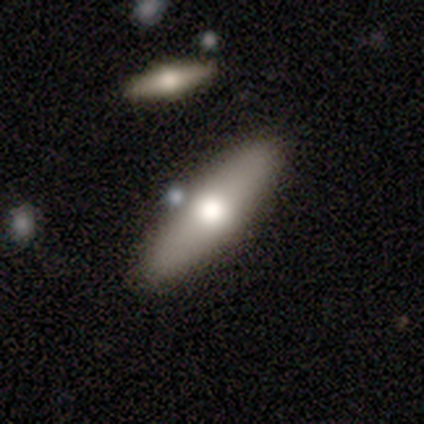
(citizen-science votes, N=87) Smooth or featured? 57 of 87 (66%) said smooth. How rounded? 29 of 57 (51%) said cigar-shaped. Merging? 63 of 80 (79%) said none.